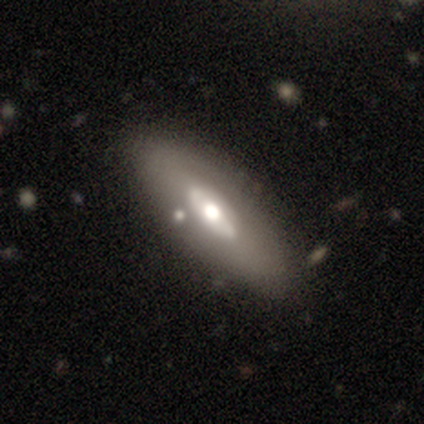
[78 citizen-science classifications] featured or disk 72%, smooth 23%, star or artifact 5%. Down the decision tree: edge-on disk — no (75%); bar — no (60%); spiral arms — no (95%); bulge size — moderate (52%); merging — none (43%).